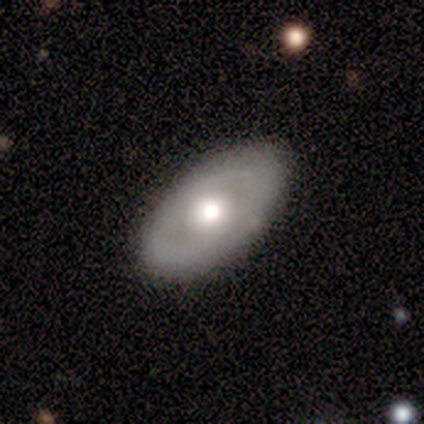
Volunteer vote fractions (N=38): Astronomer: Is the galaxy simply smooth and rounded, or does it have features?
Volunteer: featured or disk — 55% (runner-up: smooth, 45%).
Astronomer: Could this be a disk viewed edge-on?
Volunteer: no — 86%.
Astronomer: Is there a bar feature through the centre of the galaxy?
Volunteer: no — 78%.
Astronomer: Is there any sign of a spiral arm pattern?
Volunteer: no — 72%.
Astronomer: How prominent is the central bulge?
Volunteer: moderate — 56% (runner-up: large, 33%).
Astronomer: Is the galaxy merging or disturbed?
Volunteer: none — 89%.